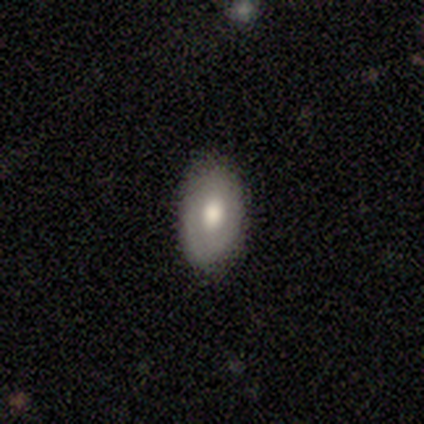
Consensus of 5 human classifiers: Volunteers were most divided on "smooth or featured": smooth: 60%, featured or disk: 20%, star or artifact: 20%. More confident: how rounded — in between (100%); merging — none (100%).